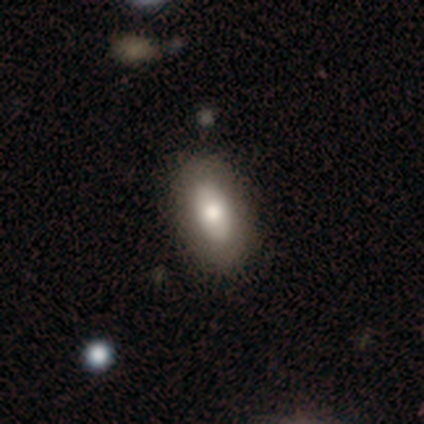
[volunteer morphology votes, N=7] Smooth or featured? 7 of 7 (100%) said smooth. How rounded? 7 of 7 (100%) said in between. Merging? 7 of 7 (100%) said none.